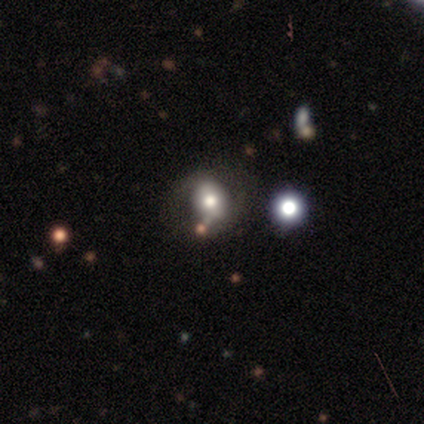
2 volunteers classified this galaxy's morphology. A smooth galaxy with no disk features (100%) that is round (100%).

Vote fractions:
- Smooth or featured? smooth: 100% / featured or disk: 0% / star or artifact: 0%
- How rounded? round: 100% / in between: 0% / cigar-shaped: 0%
- Merging? none: 100% / minor disturbance: 0% / major disturbance: 0% / merger: 0%